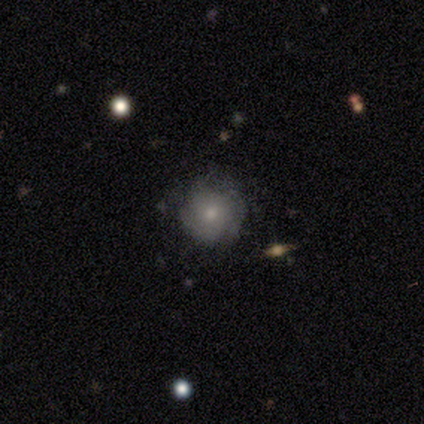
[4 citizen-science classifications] This is possibly a smooth galaxy (50%, tied with featured or disk). How rounded: clearly round (100%). Merging: likely none (75%).